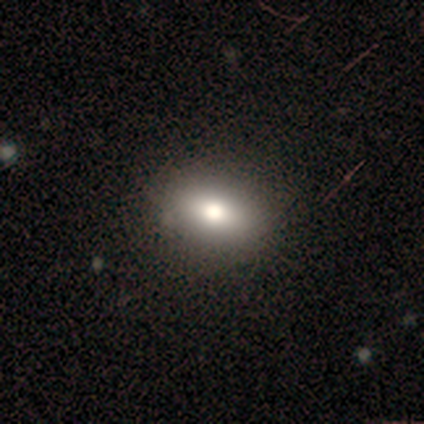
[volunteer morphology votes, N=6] Smooth or featured?
  - smooth: 83% *
  - star or artifact: 17%
  - featured or disk: 0%
How rounded?
  - in between: 60% *
  - round: 40%
  - cigar-shaped: 0%
Merging?
  - none: 80% *
  - minor disturbance: 20%
  - major disturbance: 0%
  - merger: 0%